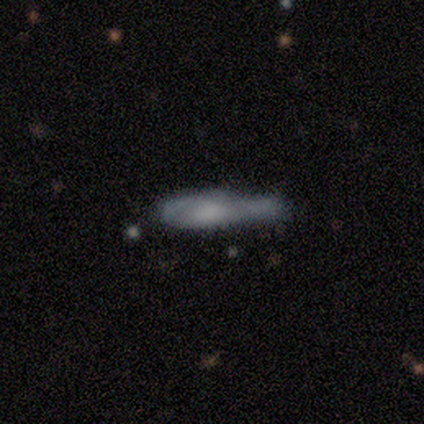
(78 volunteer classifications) Q: Smooth or featured?
A: smooth (51%); runner-up: featured or disk (46%)
Q: How rounded?
A: cigar-shaped (60%); runner-up: in between (38%)
Q: Merging?
A: minor disturbance (22%); runner-up: merger (21%)